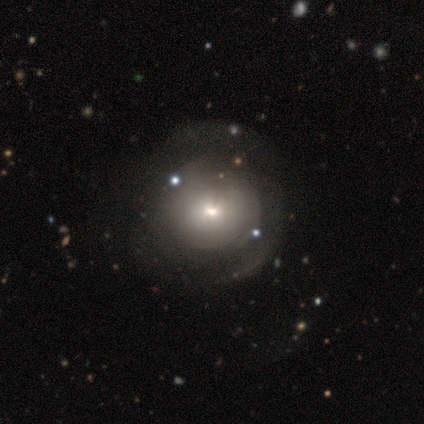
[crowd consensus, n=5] Smooth or featured: featured or disk — 100%
Edge-on disk: no — 100%
Bar: no — 80% (weak — 20%)
Spiral arms: yes — 60% (no — 40%)
Spiral winding: tight — 67% (medium — 33%)
Spiral arm count: 2 — 67% (can't tell — 33%)
Bulge size: small — 80% (large — 20%)
Merging: major disturbance — 40% (none — 20%)